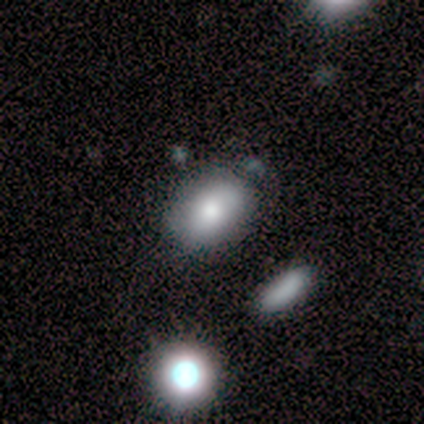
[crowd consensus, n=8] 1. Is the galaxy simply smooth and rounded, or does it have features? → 88% smooth, 12% star or artifact, 0% featured or disk.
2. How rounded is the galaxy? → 86% in between, 14% round, 0% cigar-shaped.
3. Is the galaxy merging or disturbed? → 86% none, 14% minor disturbance, 0% major disturbance, 0% merger.